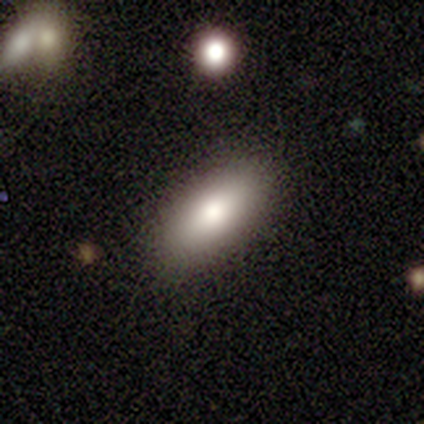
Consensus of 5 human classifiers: Overall: smooth (80%). How rounded: in between (75%). Merging: none (100%).